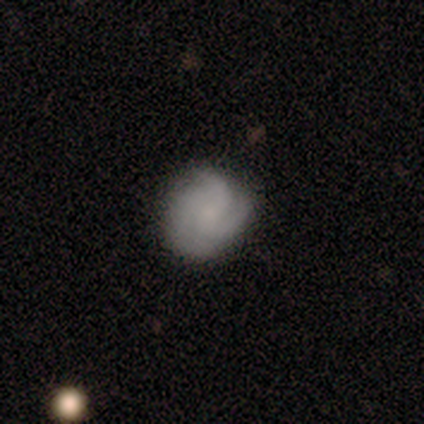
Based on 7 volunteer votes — Smooth or featured? featured or disk (57%)
Edge-on disk? no (100%)
Bar? no (75%)
Spiral arms? yes (100%)
Spiral winding? tight (75%)
Spiral arm count? 3 (75%)
Bulge size? small (75%)
Merging? minor disturbance (71%)